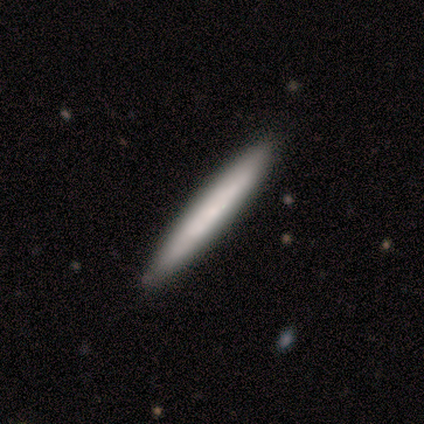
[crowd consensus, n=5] smooth 40% (tied), star or artifact 40% (tied), featured or disk 20%. Down the decision tree: how rounded — in between (50%, tied with cigar-shaped); merging — none (100%).